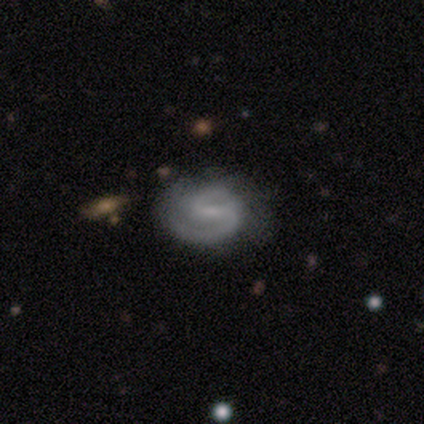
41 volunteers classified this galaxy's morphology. smooth-or-featured: featured or disk: 98% | smooth: 2% | star or artifact: 0%
  disk-edge-on: no: 98% | yes: 2%
    bar: weak: 62% | strong: 23% | no: 15%
    has-spiral-arms: yes: 97% | no: 3%
      spiral-winding: medium: 53% | tight: 37% | loose: 11%
      spiral-arm-count: 2: 89% | 1: 8% | can't tell: 3% | 3: 0% | 4: 0% | more than 4: 0%
    bulge-size: small: 54% | none: 36% | moderate: 10% | dominant: 0% | large: 0%
  merging: none: 44% | minor disturbance: 15% | major disturbance: 7% | merger: 0%